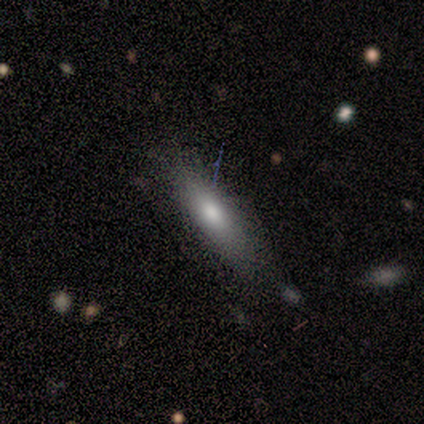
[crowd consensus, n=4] This is likely a smooth galaxy (75%). How rounded: likely cigar-shaped (67%). Merging: likely none (75%).